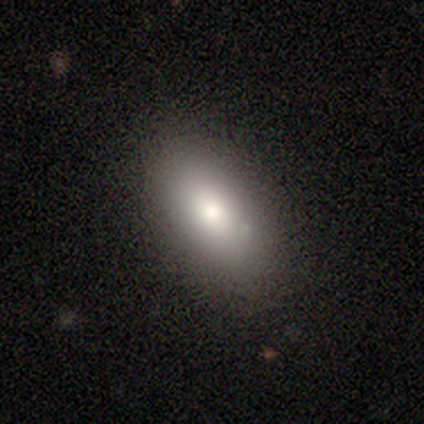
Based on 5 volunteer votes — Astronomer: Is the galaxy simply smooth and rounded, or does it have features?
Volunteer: smooth — 100%.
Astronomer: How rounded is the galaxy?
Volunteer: in between — 60% (runner-up: round, 40%).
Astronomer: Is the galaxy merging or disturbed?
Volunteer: none — 60% (runner-up: minor disturbance, 40%).